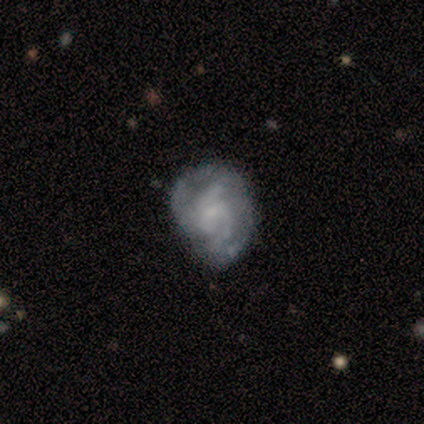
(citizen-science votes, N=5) Smooth or featured: featured or disk — 60% (smooth — 40%)
Edge-on disk: no — 100%
Bar: weak — 67% (no — 33%)
Spiral arms: yes — 67% (no — 33%)
Spiral winding: medium — 100%
Spiral arm count: 3 — 50% (tied with can't tell — 50%)
Bulge size: small — 100%
Merging: minor disturbance — 40% (tied with major disturbance — 40%)